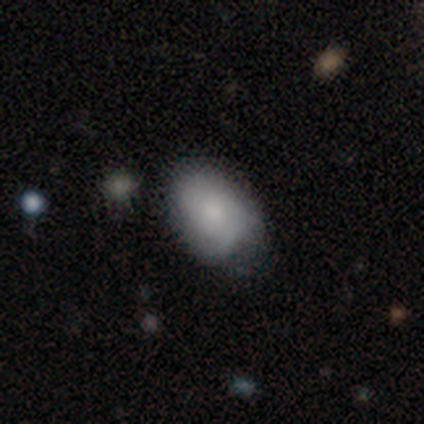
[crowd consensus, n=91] Smooth or featured? smooth (68%)
How rounded? in between (85%)
Merging? none (52%)